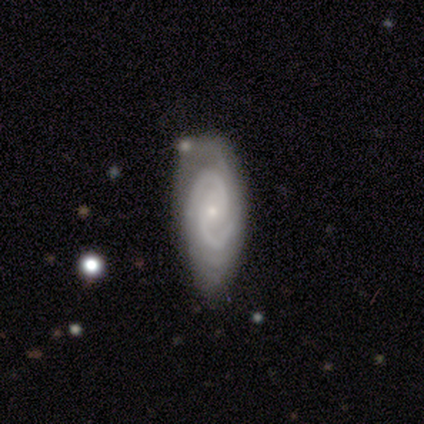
smooth_or_featured: featured or disk (p=0.85) [alt: star or artifact p=0.12]
disk_edge_on: no (p=0.94) [alt: yes p=0.06]
bar: no (p=0.50) [alt: weak p=0.38]
has_spiral_arms: yes (p=0.97) [alt: no p=0.03]
spiral_winding: tight (p=0.58) [alt: medium p=0.42]
spiral_arm_count: 2 (p=0.65) [alt: 3 p=0.13]
bulge_size: small (p=0.94) [alt: dominant p=0.03]
merging: none (p=0.51) [alt: minor disturbance p=0.37]